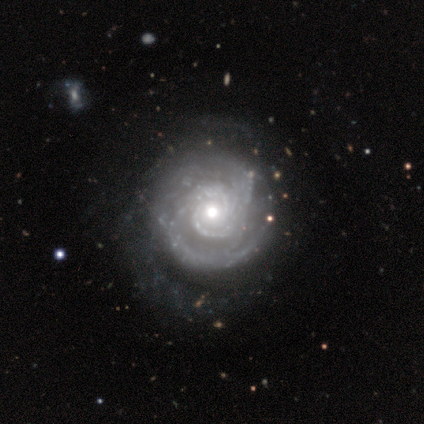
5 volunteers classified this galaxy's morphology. Volunteers were most divided on "merging": minor disturbance: 60%, none: 20%, major disturbance: 20%, merger: 0%. More confident: edge-on disk — no (100%); bar — no (100%); spiral arms — yes (100%); spiral winding — tight (100%); smooth or featured — featured or disk (80%); spiral arm count — 2 (75%); bulge size — moderate (75%).